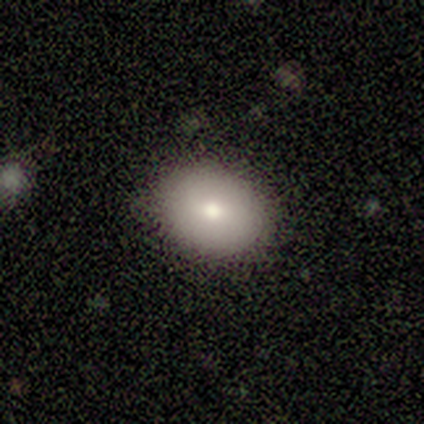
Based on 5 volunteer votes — This appears to be a smooth galaxy with no disk features (80%) that is round (75%). Merging: none (100%).